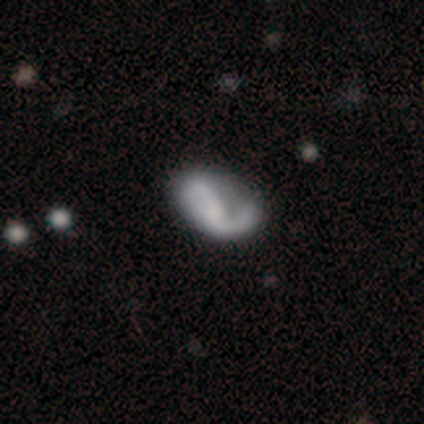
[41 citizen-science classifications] smooth-or-featured: featured or disk: 71% | smooth: 27% | star or artifact: 2%
  disk-edge-on: no: 93% | yes: 7%
    bar: no: 74% | weak: 22% | strong: 4%
    has-spiral-arms: yes: 78% | no: 22%
      spiral-winding: loose: 62% | medium: 24% | tight: 14%
      spiral-arm-count: 2: 71% | 1: 19% | can't tell: 10% | 3: 0% | 4: 0% | more than 4: 0%
    bulge-size: none: 44% | dominant: 19% | moderate: 19% | small: 19% | large: 0%
  merging: none: 28% (tied) | major disturbance: 28% (tied) | minor disturbance: 10% | merger: 2%